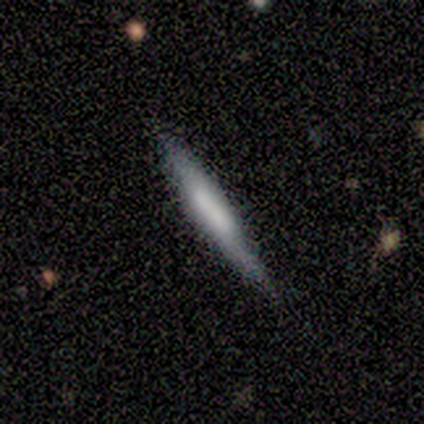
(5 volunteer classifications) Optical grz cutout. It shows a featured or disk galaxy (60%) viewed edge-on (100%) with a boxy central bulge (67%). Merging: none (75%).